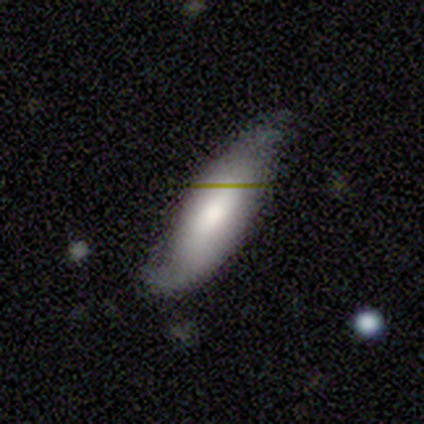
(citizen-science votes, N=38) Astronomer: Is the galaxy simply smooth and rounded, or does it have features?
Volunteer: smooth — 63%.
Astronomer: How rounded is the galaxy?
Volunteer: in between — 54% (runner-up: cigar-shaped, 42%).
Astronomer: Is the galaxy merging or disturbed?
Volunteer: none — 62%.